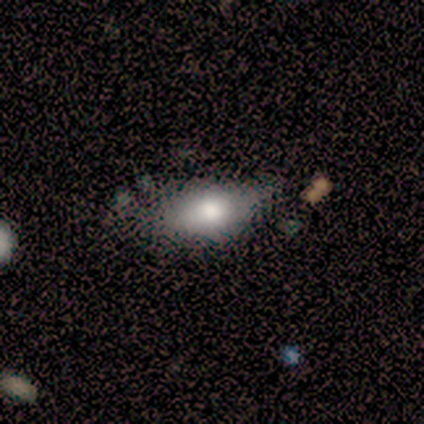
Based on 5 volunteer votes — smooth_or_featured: smooth (p=0.60) [alt: featured or disk p=0.20]
how_rounded: in between (p=1.00)
merging: none (p=0.50) [tied with: minor disturbance p=0.50]